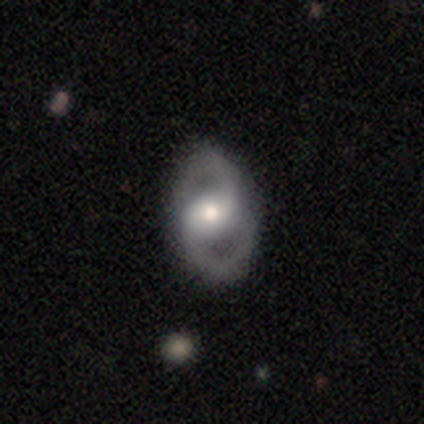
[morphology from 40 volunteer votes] Overall: featured or disk (95%). Edge-on disk: no (95%). Bar: no (53%; weak 31%). Spiral arms: yes (89%). Spiral arm count: 2 (100%). Spiral winding: medium (50%; tight 25%). Bulge size: moderate (72%). Merging: none (87%).